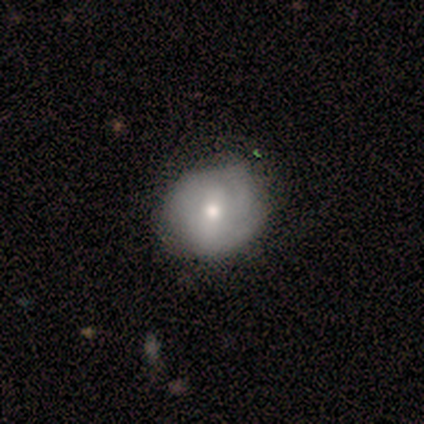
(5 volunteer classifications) Smooth or featured? 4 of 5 (80%) said smooth. How rounded? 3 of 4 (75%) said round. Merging? 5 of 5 (100%) said none.